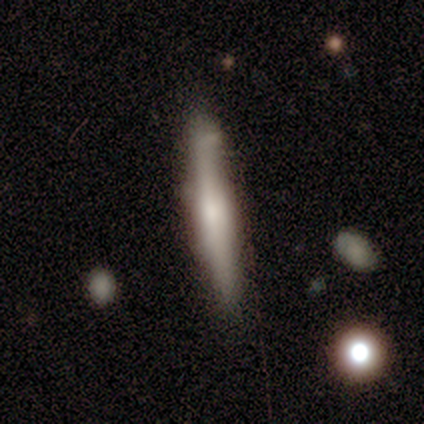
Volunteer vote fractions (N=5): A smooth galaxy with no disk features (40%, tied with star or artifact) that is in between round and cigar-shaped (50%, tied with cigar-shaped). Merging: minor disturbance (67%).